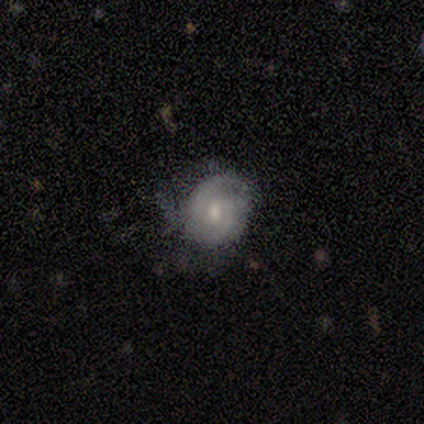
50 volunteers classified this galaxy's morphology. A featured or disk galaxy (78%) with no bar (61%), 2 (78%) tight (49%, tied with medium) spiral arms (97%) and a moderate central bulge (58%).

Vote fractions:
- Smooth or featured? featured or disk: 78% / smooth: 12% / star or artifact: 10%
- Edge-on disk? no: 97% / yes: 3%
- Bar? no: 61% / weak: 37% / strong: 3%
- Spiral arms? yes: 97% / no: 3%
- Spiral winding? tight: 49% (tied) / medium: 49% (tied) / loose: 3%
- Spiral arm count? 2: 78% / 3: 11% / can't tell: 11% / 1: 0% / 4: 0% / more than 4: 0%
- Bulge size? moderate: 58% / small: 32% / none: 5% / dominant: 3% / large: 3%
- Merging? none: 64% / minor disturbance: 22% / major disturbance: 13% / merger: 0%